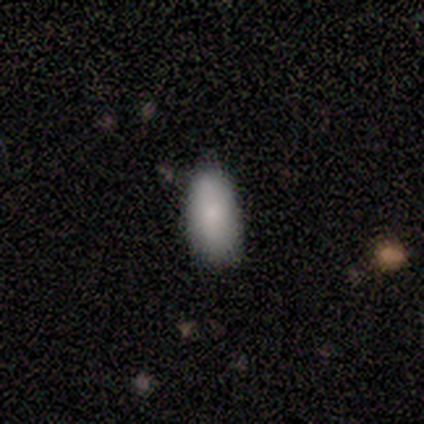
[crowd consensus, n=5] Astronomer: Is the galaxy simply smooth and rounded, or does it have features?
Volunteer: smooth — 100%.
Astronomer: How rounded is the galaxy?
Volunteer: in between — 80%.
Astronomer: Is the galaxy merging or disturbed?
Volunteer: none — 80%.